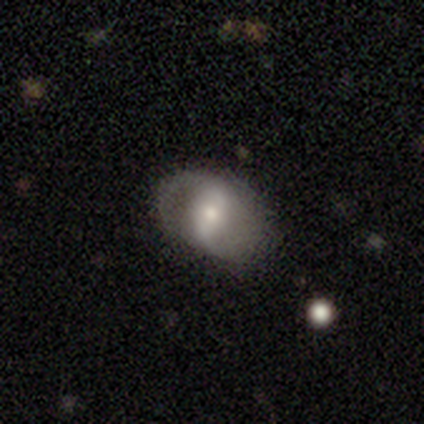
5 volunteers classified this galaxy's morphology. smooth_or_featured: featured or disk (p=0.60) [alt: smooth p=0.40]
disk_edge_on: no (p=1.00)
bar: weak (p=0.67) [alt: strong p=0.33]
has_spiral_arms: yes (p=1.00)
spiral_winding: medium (p=0.67) [alt: loose p=0.33]
spiral_arm_count: 2 (p=1.00)
bulge_size: large (p=0.33) [tied with: moderate p=0.33, small p=0.33]
merging: none (p=0.60) [alt: minor disturbance p=0.20]